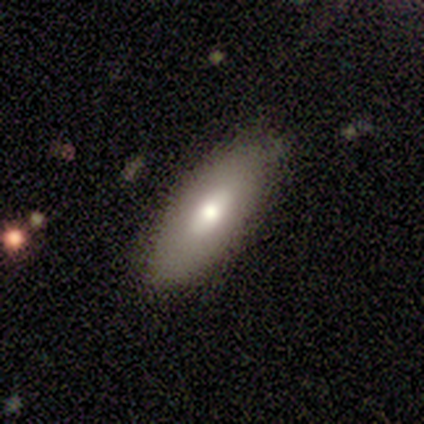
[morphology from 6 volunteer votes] Smooth or featured? smooth (100%)
How rounded? in between (83%)
Merging? none (83%)